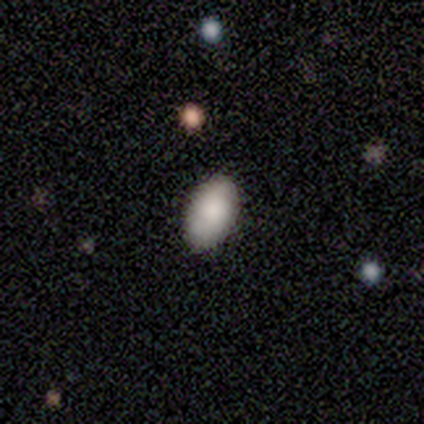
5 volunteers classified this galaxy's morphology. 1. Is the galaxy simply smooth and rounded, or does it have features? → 100% smooth, 0% featured or disk, 0% star or artifact.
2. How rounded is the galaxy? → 100% in between, 0% round, 0% cigar-shaped.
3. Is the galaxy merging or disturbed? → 100% none, 0% minor disturbance, 0% major disturbance, 0% merger.